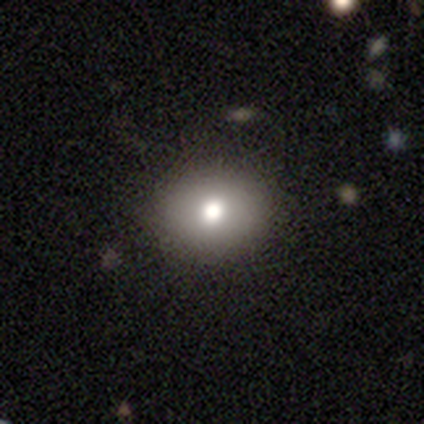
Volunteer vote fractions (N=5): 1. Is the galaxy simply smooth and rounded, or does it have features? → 40% smooth (tied), 40% star or artifact (tied), 20% featured or disk.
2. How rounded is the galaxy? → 100% round, 0% in between, 0% cigar-shaped.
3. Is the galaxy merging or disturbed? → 100% none, 0% minor disturbance, 0% major disturbance, 0% merger.